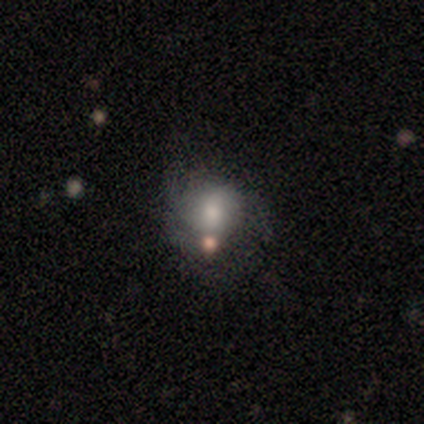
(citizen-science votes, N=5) smooth_or_featured: smooth (p=0.60) [alt: featured or disk p=0.40]
how_rounded: round (p=1.00)
merging: merger (p=0.60) [alt: none p=0.40]